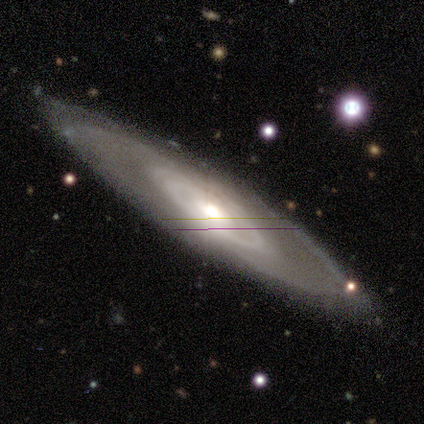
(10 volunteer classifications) featured or disk 100%, smooth 0%, star or artifact 0%. Down the decision tree: edge-on disk — no (90%); bar — no (89%); spiral arms — yes (67%); spiral arm count — can't tell (50%); spiral winding — tight (67%); bulge size — moderate (67%); merging — none (80%).